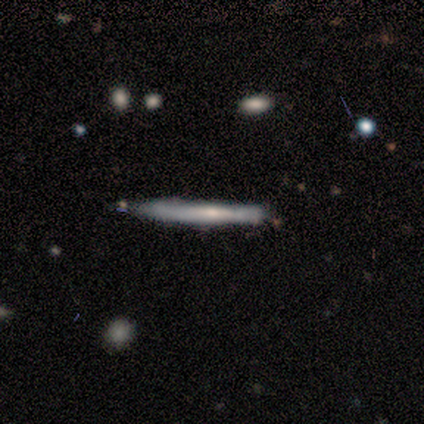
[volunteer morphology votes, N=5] This appears to be a smooth galaxy with no disk features (80%) that is cigar-shaped (100%). Merging: none (80%).